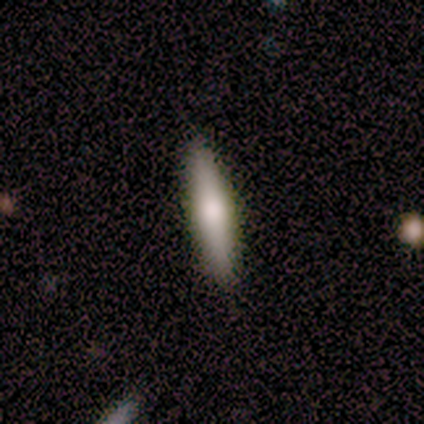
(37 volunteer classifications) smooth_or_featured: smooth (p=0.68) [alt: featured or disk p=0.30]
how_rounded: cigar-shaped (p=0.96) [alt: in between p=0.04]
merging: none (p=0.89) [alt: minor disturbance p=0.08]